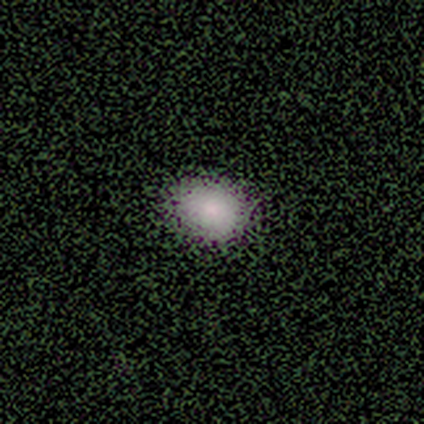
A smooth galaxy with no disk features (67%) that is in between round and cigar-shaped (100%). Merging: none (100%).